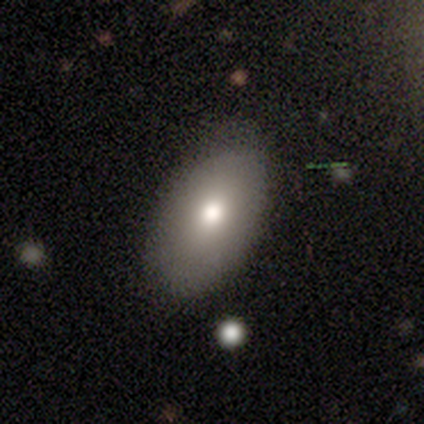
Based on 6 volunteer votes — A smooth galaxy with no disk features (50%, tied with featured or disk) that is in between round and cigar-shaped (100%).

Vote fractions:
- Smooth or featured? smooth: 50% (tied) / featured or disk: 50% (tied) / star or artifact: 0%
- How rounded? in between: 100% / round: 0% / cigar-shaped: 0%
- Merging? none: 83% / minor disturbance: 17% / major disturbance: 0% / merger: 0%